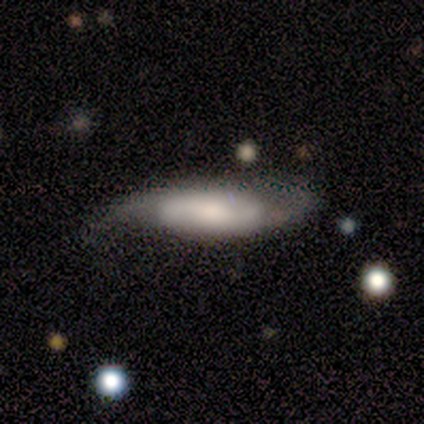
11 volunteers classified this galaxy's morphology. Volunteers were most divided on "smooth or featured": smooth: 55%, featured or disk: 36%, star or artifact: 9%. More confident: how rounded — in between (67%); merging — minor disturbance (50%).